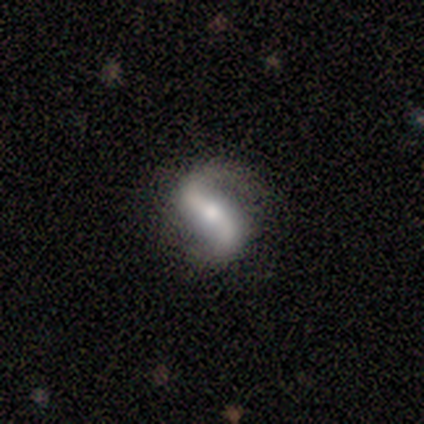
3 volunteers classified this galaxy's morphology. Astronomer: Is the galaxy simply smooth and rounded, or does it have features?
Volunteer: featured or disk — 100%.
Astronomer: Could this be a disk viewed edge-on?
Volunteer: no — 100%.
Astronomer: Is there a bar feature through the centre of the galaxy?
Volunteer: strong — 100%.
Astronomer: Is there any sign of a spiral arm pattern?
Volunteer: yes — 100%.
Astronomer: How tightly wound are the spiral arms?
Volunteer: loose — 67%.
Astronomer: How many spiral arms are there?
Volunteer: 2 — 100%.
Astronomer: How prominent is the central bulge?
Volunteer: moderate — 100%.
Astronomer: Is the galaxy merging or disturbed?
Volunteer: none — 67%.